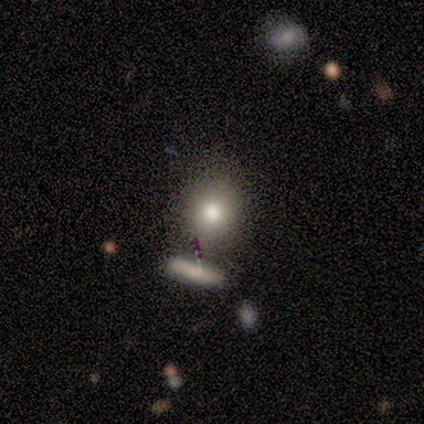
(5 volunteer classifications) smooth-or-featured: smooth: 100% | featured or disk: 0% | star or artifact: 0%
  how-rounded: round: 80% | cigar-shaped: 20% | in between: 0%
  merging: none: 100% | minor disturbance: 0% | major disturbance: 0% | merger: 0%